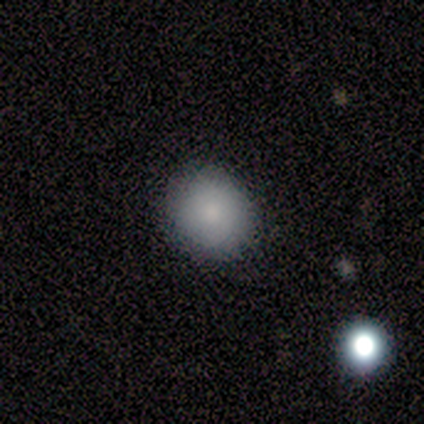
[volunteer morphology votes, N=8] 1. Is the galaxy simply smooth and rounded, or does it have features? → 88% smooth, 12% star or artifact, 0% featured or disk.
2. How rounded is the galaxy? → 71% in between, 29% round, 0% cigar-shaped.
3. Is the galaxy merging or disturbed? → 86% none, 14% minor disturbance, 0% major disturbance, 0% merger.